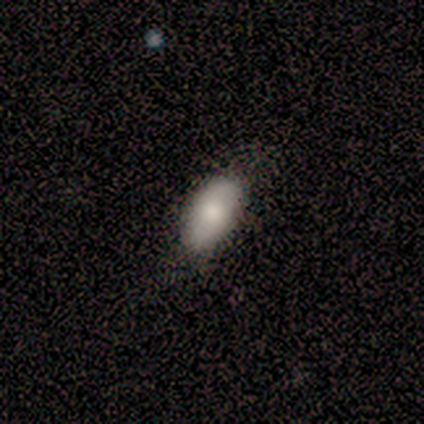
Smooth or featured? 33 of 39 (85%) said smooth. How rounded? 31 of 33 (94%) said in between. Merging? 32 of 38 (84%) said none.